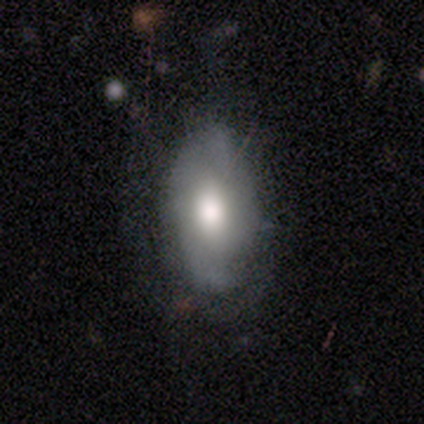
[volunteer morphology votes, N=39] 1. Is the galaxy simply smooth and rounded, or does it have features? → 56% smooth, 36% featured or disk, 8% star or artifact.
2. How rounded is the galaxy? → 95% in between, 5% cigar-shaped, 0% round.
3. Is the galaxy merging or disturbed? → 58% none, 19% minor disturbance, 19% major disturbance, 3% merger.